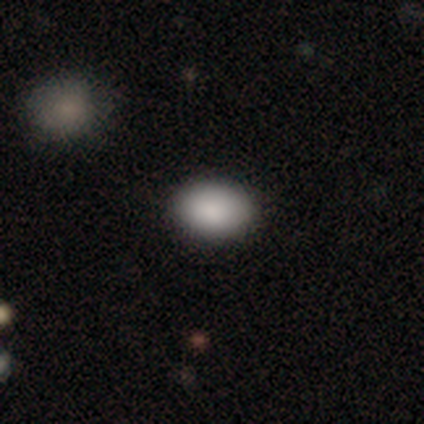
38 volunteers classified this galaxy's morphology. Overall: smooth (82%). How rounded: in between (77%). Merging: none (88%).